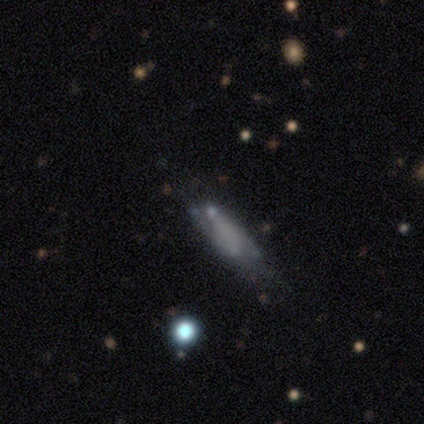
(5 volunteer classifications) This appears to be a smooth galaxy with no disk features (80%) that is in between round and cigar-shaped (75%). Merging: major disturbance (50%).